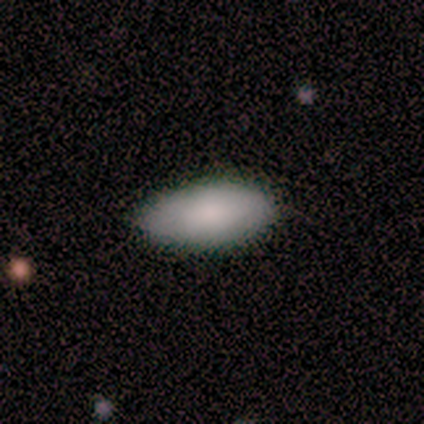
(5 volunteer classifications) Smooth or featured? 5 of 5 (100%) said smooth. How rounded? 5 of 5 (100%) said in between. Merging? 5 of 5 (100%) said none.